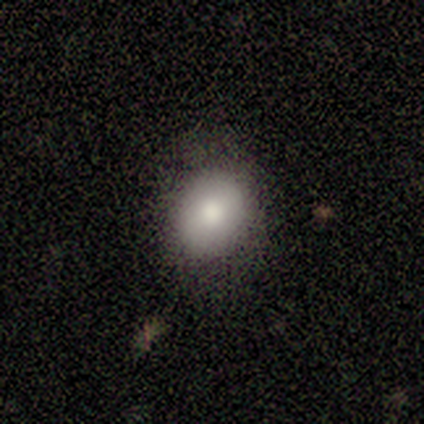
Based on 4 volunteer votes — This appears to be a smooth galaxy with no disk features (50%, tied with featured or disk) that is round (100%). Merging: none (100%).